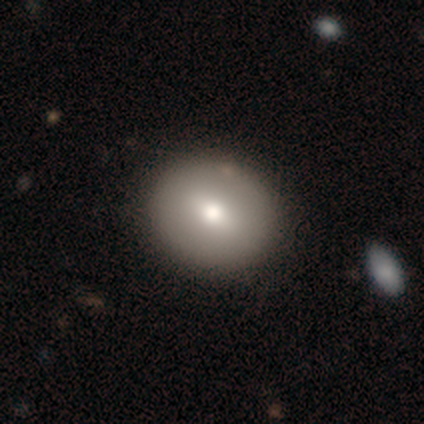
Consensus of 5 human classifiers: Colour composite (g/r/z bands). It shows a smooth galaxy with no disk features (80%) that is round (75%). Merging: none (80%).